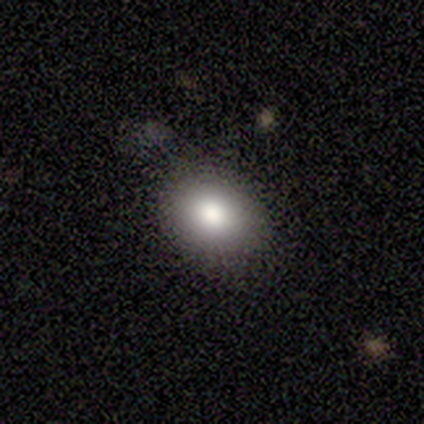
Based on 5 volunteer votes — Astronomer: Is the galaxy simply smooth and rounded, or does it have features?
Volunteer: smooth — 80%.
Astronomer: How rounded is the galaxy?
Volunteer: in between — 100%.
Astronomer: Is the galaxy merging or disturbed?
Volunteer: none — 100%.